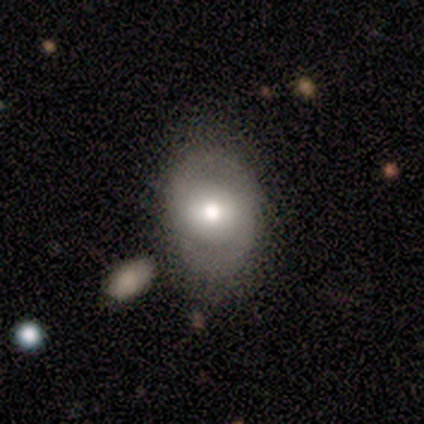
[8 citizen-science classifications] Overall: smooth (62%; featured or disk 25%). How rounded: in between (100%). Merging: none (86%).